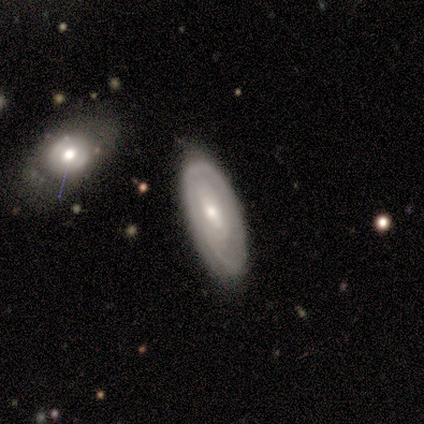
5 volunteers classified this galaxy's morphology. Smooth or featured?
  - featured or disk: 60% *
  - smooth: 40%
  - star or artifact: 0%
Edge-on disk?
  - no: 100% *
  - yes: 0%
Bar?
  - strong: 33% * (tied)
  - weak: 33% * (tied)
  - no: 33% * (tied)
Spiral arms?
  - yes: 100% *
  - no: 0%
Spiral winding?
  - tight: 67% *
  - medium: 33%
  - loose: 0%
Spiral arm count?
  - can't tell: 67% *
  - 1: 33%
  - 2: 0%
  - 3: 0%
  - 4: 0%
  - more than 4: 0%
Bulge size?
  - small: 67% *
  - moderate: 33%
  - dominant: 0%
  - large: 0%
  - none: 0%
Merging?
  - none: 100% *
  - minor disturbance: 0%
  - major disturbance: 0%
  - merger: 0%